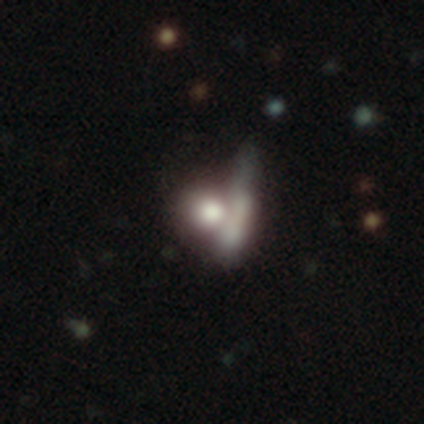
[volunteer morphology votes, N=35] This is possibly a featured or disk galaxy (49%). It is likely not viewed edge-on (65%). Bar: clearly no (82%). Spiral arm pattern: clearly no (91%). Central bulge: marginally large (27%, tied with moderate and none). Merging: possibly merger (55%).